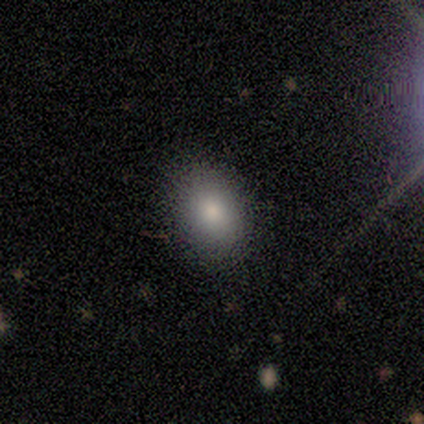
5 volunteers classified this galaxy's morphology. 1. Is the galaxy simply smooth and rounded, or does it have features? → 80% smooth, 20% featured or disk, 0% star or artifact.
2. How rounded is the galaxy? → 50% round (tied), 50% in between (tied), 0% cigar-shaped.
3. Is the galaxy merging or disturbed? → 60% none, 40% minor disturbance, 0% major disturbance, 0% merger.